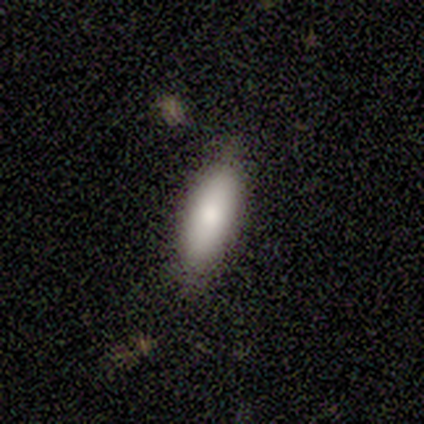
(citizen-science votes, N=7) smooth 100%, featured or disk 0%, star or artifact 0%. Down the decision tree: how rounded — in between (86%); merging — none (100%).